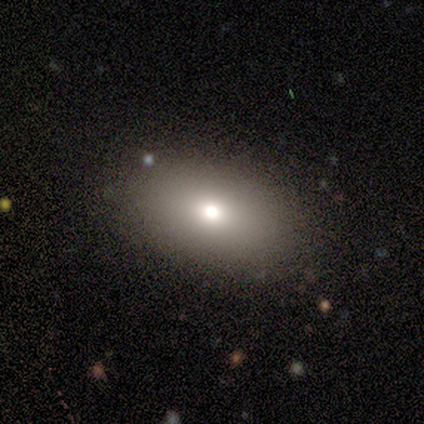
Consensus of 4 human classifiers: A smooth galaxy with no disk features (50%) that is round (50%, tied with in between).

Vote fractions:
- Smooth or featured? smooth: 50% / featured or disk: 25% / star or artifact: 25%
- How rounded? round: 50% (tied) / in between: 50% (tied) / cigar-shaped: 0%
- Merging? none: 100% / minor disturbance: 0% / major disturbance: 0% / merger: 0%